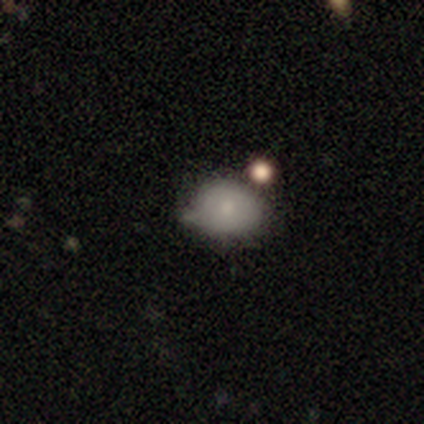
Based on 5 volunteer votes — Overall: smooth (60%; featured or disk 20%). How rounded: in between (67%; round 33%). Merging: minor disturbance (50%; major disturbance 25%).